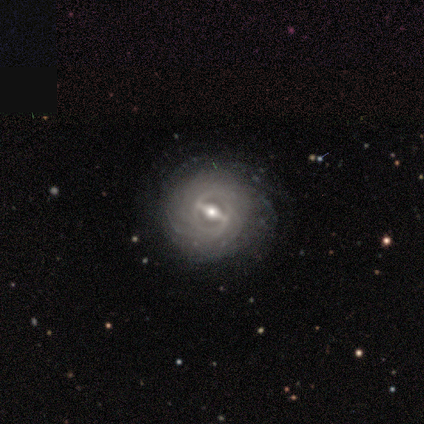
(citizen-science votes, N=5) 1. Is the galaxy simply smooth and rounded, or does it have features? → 100% featured or disk, 0% smooth, 0% star or artifact.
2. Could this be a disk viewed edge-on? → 100% no, 0% yes.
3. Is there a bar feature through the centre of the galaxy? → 80% strong, 20% weak, 0% no.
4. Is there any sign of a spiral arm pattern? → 100% yes, 0% no.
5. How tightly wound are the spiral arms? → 100% tight, 0% medium, 0% loose.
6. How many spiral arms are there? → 60% more than 4, 40% can't tell, 0% 1, 0% 2, 0% 3, 0% 4.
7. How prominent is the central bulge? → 60% small, 40% moderate, 0% dominant, 0% large, 0% none.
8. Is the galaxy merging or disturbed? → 80% none, 20% minor disturbance, 0% major disturbance, 0% merger.